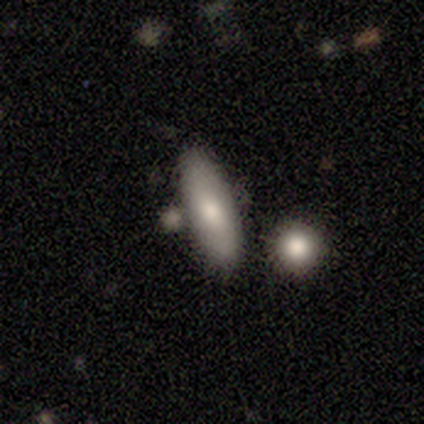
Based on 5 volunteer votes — smooth-or-featured: featured or disk: 60% | smooth: 40% | star or artifact: 0%
  disk-edge-on: no: 100% | yes: 0%
    bar: no: 100% | strong: 0% | weak: 0%
    has-spiral-arms: no: 100% | yes: 0%
    bulge-size: large: 33% (tied) | moderate: 33% (tied) | none: 33% (tied) | dominant: 0% | small: 0%
  merging: none: 40% (tied) | minor disturbance: 40% (tied) | merger: 20% | major disturbance: 0%